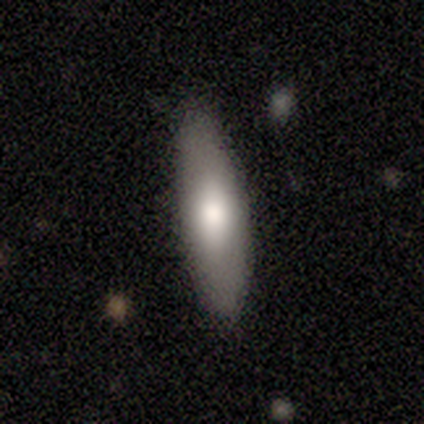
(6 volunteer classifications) smooth_or_featured: smooth (p=0.50) [tied with: featured or disk p=0.50]
how_rounded: cigar-shaped (p=0.67) [alt: in between p=0.33]
merging: none (p=1.00)